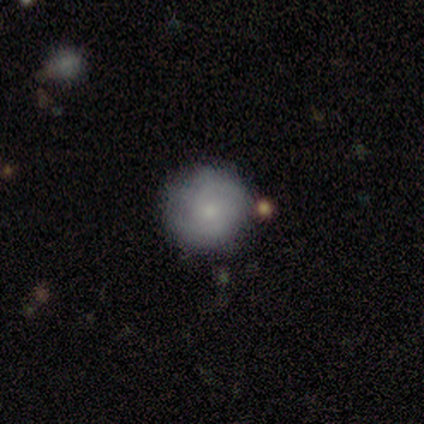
Smooth or featured?
  - smooth: 50% * (tied)
  - featured or disk: 50% * (tied)
  - star or artifact: 0%
How rounded?
  - round: 100% *
  - in between: 0%
  - cigar-shaped: 0%
Merging?
  - none: 100% *
  - minor disturbance: 0%
  - major disturbance: 0%
  - merger: 0%